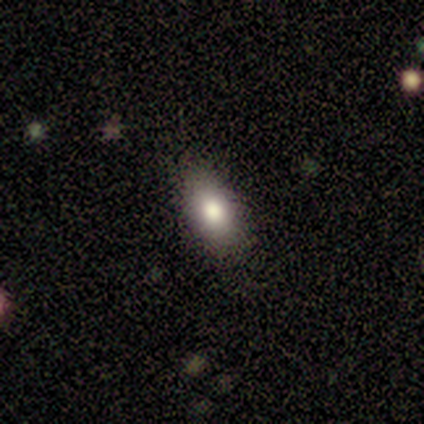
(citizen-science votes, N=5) smooth_or_featured: smooth (p=1.00)
how_rounded: in between (p=0.80) [alt: round p=0.20]
merging: none (p=1.00)